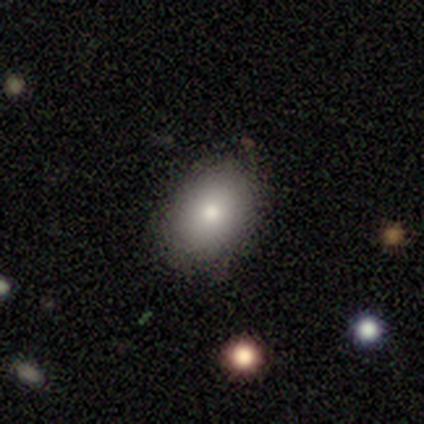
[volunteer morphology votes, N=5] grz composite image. It shows a smooth galaxy with no disk features (80%) that is in between round and cigar-shaped (75%). Merging: none (80%).